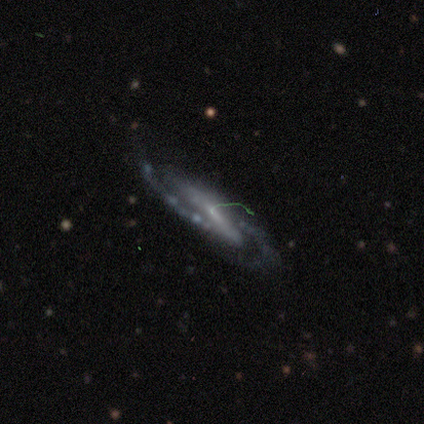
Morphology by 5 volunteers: Overall: featured or disk (60%; smooth 40%). Edge-on disk: no (100%). Bar: no (67%; strong 33%). Spiral arms: yes (100%). Spiral arm count: 2 (100%). Spiral winding: medium (67%; tight 33%). Bulge size: small (67%; none 33%). Merging: none (80%).